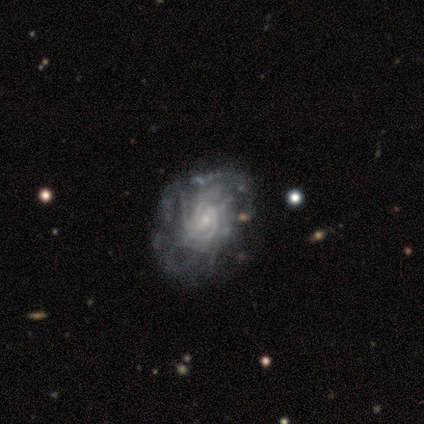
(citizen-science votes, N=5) Smooth or featured?
  - featured or disk: 100% *
  - smooth: 0%
  - star or artifact: 0%
Edge-on disk?
  - no: 100% *
  - yes: 0%
Bar?
  - no: 80% *
  - weak: 20%
  - strong: 0%
Spiral arms?
  - yes: 80% *
  - no: 20%
Spiral winding?
  - tight: 75% *
  - loose: 25%
  - medium: 0%
Spiral arm count?
  - more than 4: 50% * (tied)
  - can't tell: 50% * (tied)
  - 1: 0%
  - 2: 0%
  - 3: 0%
  - 4: 0%
Bulge size?
  - small: 60% *
  - moderate: 40%
  - dominant: 0%
  - large: 0%
  - none: 0%
Merging?
  - minor disturbance: 60% *
  - none: 40%
  - major disturbance: 0%
  - merger: 0%